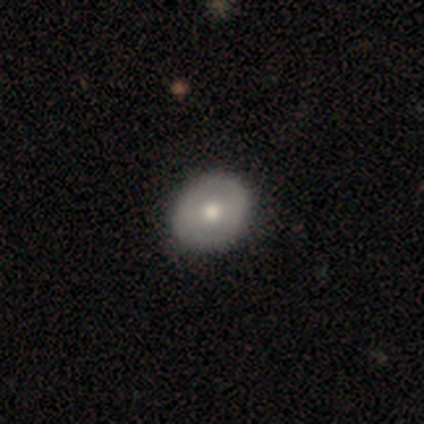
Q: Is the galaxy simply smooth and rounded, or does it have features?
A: smooth — 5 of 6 (83%).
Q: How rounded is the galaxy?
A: round — 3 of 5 (60%).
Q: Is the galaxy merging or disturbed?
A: none — 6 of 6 (100%).